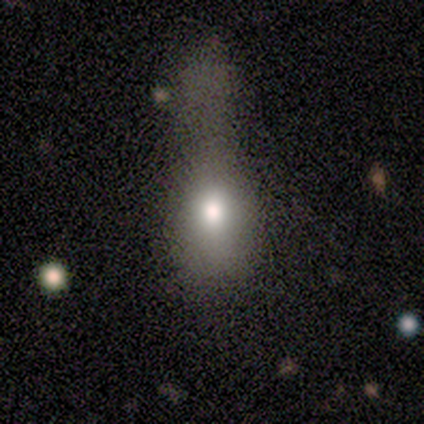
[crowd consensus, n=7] smooth-or-featured: smooth: 71% | featured or disk: 14% | star or artifact: 14%
  how-rounded: in between: 80% | round: 20% | cigar-shaped: 0%
  merging: major disturbance: 67% | minor disturbance: 33% | none: 0% | merger: 0%